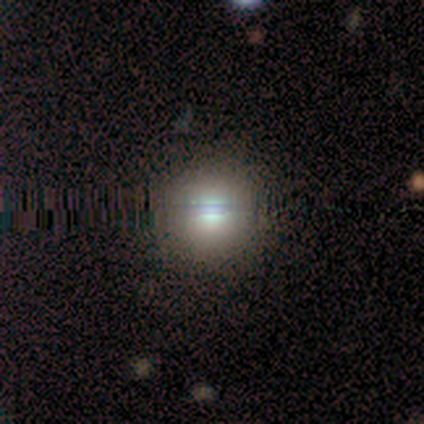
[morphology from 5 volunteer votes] smooth_or_featured: smooth (p=0.60) [alt: featured or disk p=0.20]
how_rounded: round (p=1.00)
merging: none (p=1.00)